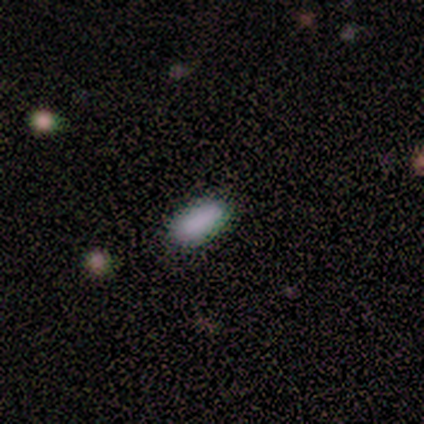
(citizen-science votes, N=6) Morphology: type=smooth (100%); roundness=in between (100%); merging=none (100%).